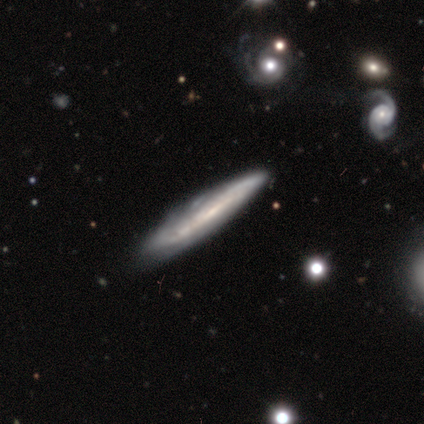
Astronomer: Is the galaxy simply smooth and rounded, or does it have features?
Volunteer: featured or disk — 79%.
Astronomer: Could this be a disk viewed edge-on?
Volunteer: yes — 73%.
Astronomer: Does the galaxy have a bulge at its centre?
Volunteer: none — 82%.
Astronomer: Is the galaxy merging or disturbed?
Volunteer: none — 56% (runner-up: minor disturbance, 33%).